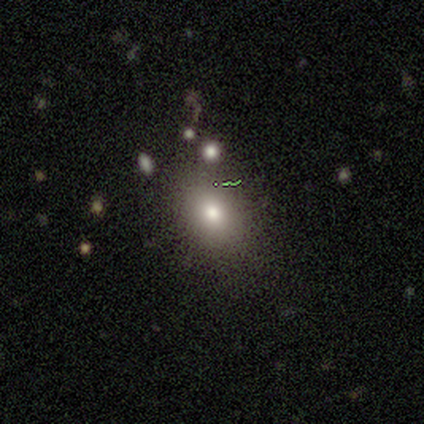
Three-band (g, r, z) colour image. It shows a smooth galaxy with no disk features (80%) that is round (50%, tied with in between). Merging: none (60%).